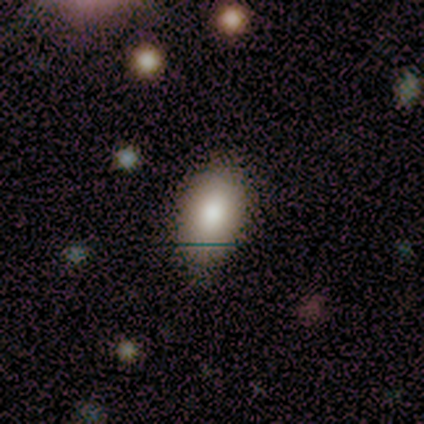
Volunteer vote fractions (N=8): Overall: smooth (88%). How rounded: in between (86%). Merging: none (86%).